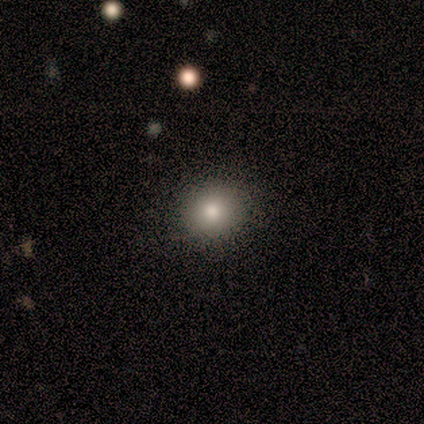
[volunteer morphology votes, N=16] A smooth galaxy with no disk features (88%) that is round (100%).

Vote fractions:
- Smooth or featured? smooth: 88% / star or artifact: 12% / featured or disk: 0%
- How rounded? round: 100% / in between: 0% / cigar-shaped: 0%
- Merging? none: 86% / minor disturbance: 14% / major disturbance: 0% / merger: 0%